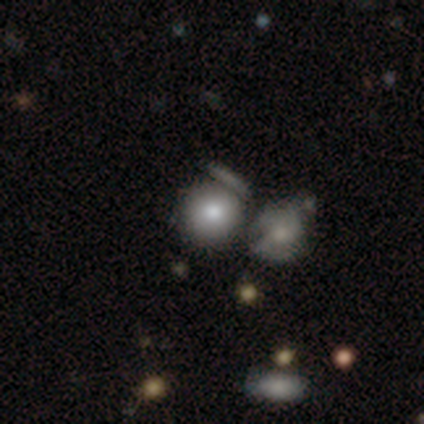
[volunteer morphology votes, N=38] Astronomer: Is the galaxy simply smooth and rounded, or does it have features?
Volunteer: smooth — 89%.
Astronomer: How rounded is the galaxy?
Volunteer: round — 91%.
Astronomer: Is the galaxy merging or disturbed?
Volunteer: merger — 41% (runner-up: none, 32%).